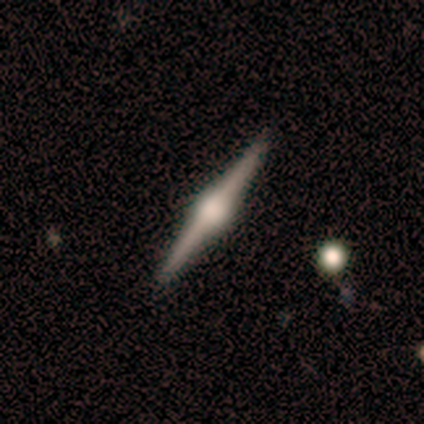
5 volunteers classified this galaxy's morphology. A featured or disk galaxy (80%) viewed edge-on (100%) with a rounded central bulge (75%). Merging: none (100%).